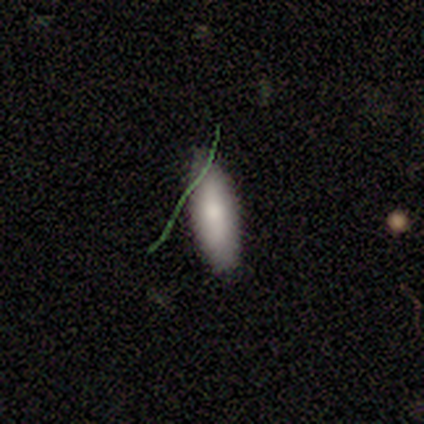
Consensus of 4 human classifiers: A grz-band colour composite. It shows a smooth galaxy with no disk features (75%) that is in between round and cigar-shaped (100%). Merging: none (100%).